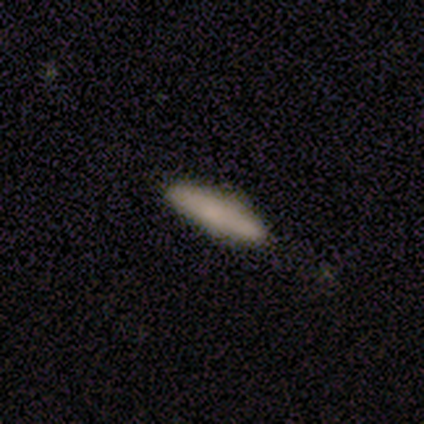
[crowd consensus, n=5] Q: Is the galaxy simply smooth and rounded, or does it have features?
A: smooth — 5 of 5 (100%).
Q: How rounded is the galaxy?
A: cigar-shaped — 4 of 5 (80%).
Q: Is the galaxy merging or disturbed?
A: none — 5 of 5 (100%).